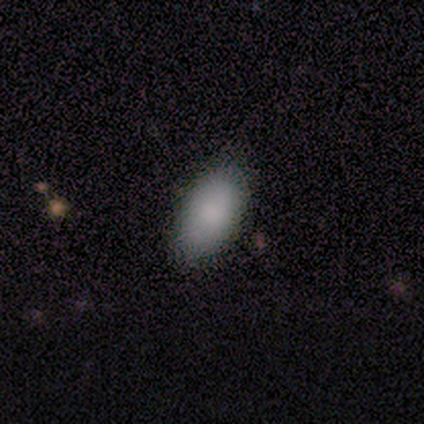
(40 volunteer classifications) This is clearly a smooth galaxy (88%). How rounded: clearly in between (94%). Merging: marginally none (44%).